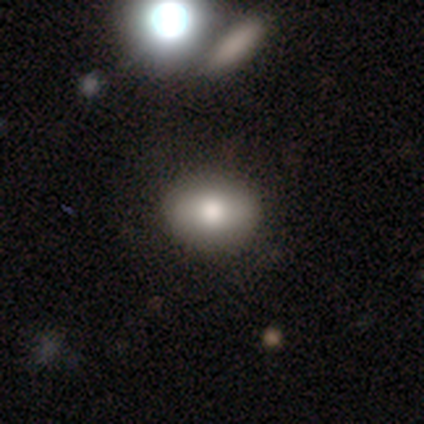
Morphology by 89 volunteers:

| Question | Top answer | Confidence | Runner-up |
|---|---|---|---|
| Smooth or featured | smooth | 76% | star or artifact (13%) |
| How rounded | in between | 59% | round (38%) |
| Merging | none | 79% | major disturbance (10%) |